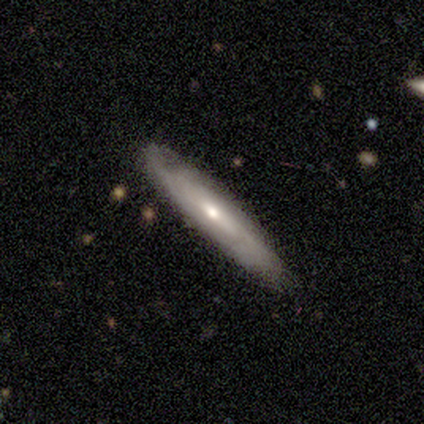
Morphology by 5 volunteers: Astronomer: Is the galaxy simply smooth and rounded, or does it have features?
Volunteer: smooth — 60% (runner-up: featured or disk, 40%).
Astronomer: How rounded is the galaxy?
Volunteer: in between — 67%.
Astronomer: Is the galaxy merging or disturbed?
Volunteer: none — 80%.